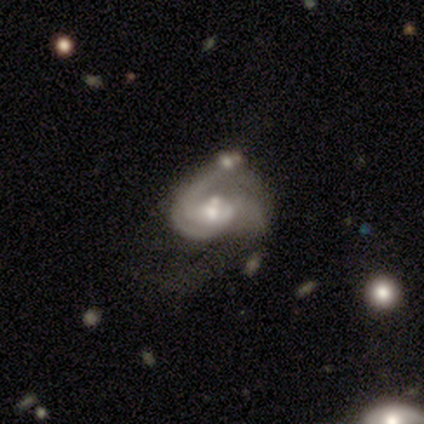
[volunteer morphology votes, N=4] A featured or disk galaxy (100%) with no bar (50%), 1 (67%) medium (67%) spiral arms (75%) and a small central bulge (100%). Merging: none (50%).